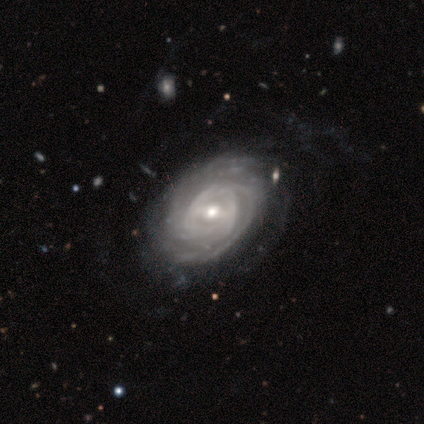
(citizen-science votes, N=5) featured or disk 100%, smooth 0%, star or artifact 0%. Down the decision tree: edge-on disk — no (100%); bar — weak (80%); spiral arms — yes (100%); spiral arm count — more than 4 (40%); spiral winding — tight (80%); bulge size — moderate (100%); merging — none (60%).